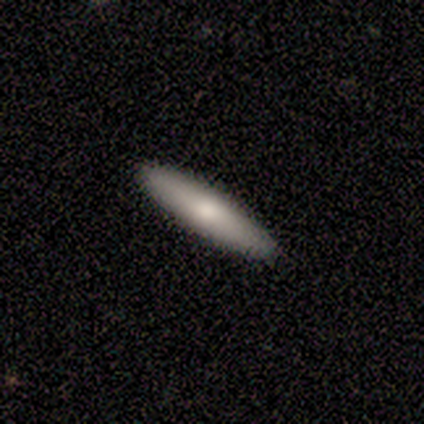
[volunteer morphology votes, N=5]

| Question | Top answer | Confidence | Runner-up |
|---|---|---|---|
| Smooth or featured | smooth | 100% | — |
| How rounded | cigar-shaped | 100% | — |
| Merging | none | 80% | major disturbance (20%) |